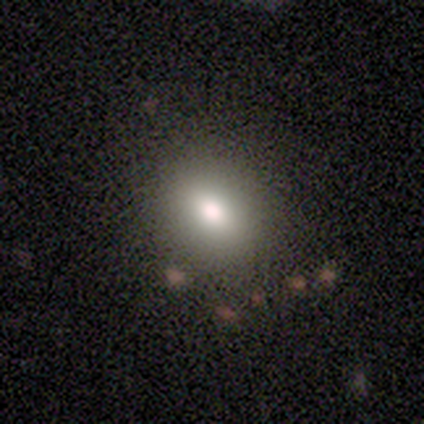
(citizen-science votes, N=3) Smooth or featured? smooth (67%)
How rounded? round (50%, tied with in between)
Merging? none (67%)